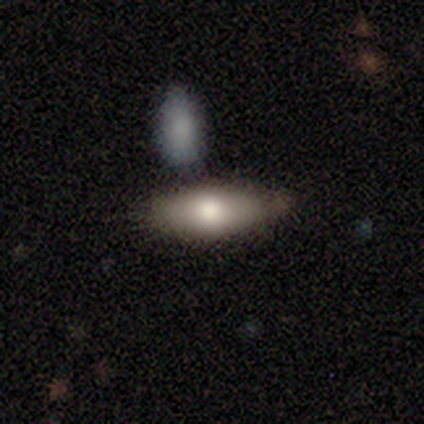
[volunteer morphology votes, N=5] This is clearly a smooth galaxy (100%). How rounded: clearly in between (100%). Merging: likely none (60%).